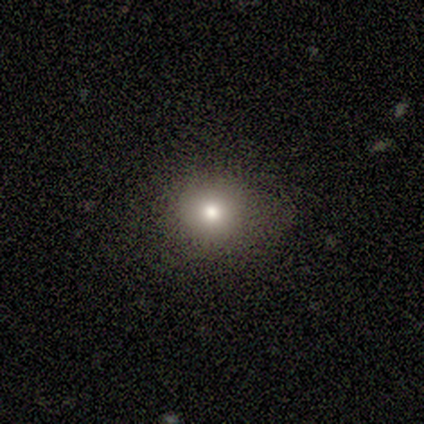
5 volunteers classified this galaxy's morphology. smooth-or-featured: smooth: 80% | star or artifact: 20% | featured or disk: 0%
  how-rounded: round: 100% | in between: 0% | cigar-shaped: 0%
  merging: none: 100% | minor disturbance: 0% | major disturbance: 0% | merger: 0%